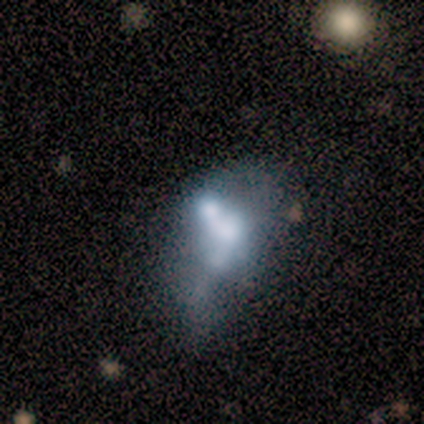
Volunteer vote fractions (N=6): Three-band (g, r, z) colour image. It shows a featured or disk galaxy (50%) with no bar (100%), no spiral arms (100%) and no central bulge (67%). Merging: major disturbance (80%).